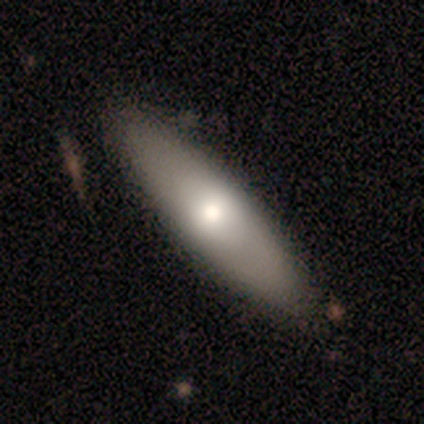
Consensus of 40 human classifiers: Smooth or featured?
  - smooth: 80% *
  - featured or disk: 18%
  - star or artifact: 2%
How rounded?
  - in between: 59% *
  - cigar-shaped: 38%
  - round: 3%
Merging?
  - none: 67% *
  - minor disturbance: 3%
  - major disturbance: 3%
  - merger: 3%